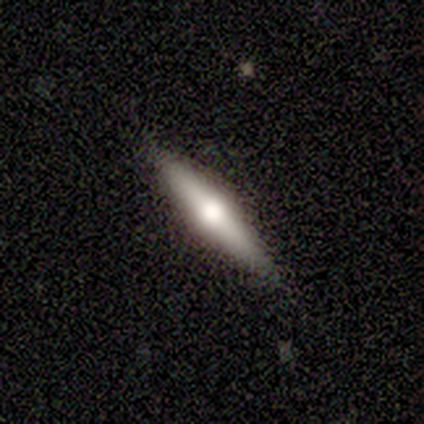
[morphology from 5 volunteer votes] Overall: featured or disk (80%). Edge-on disk: yes (100%). Edge-on bulge: rounded (100%). Merging: none (100%).